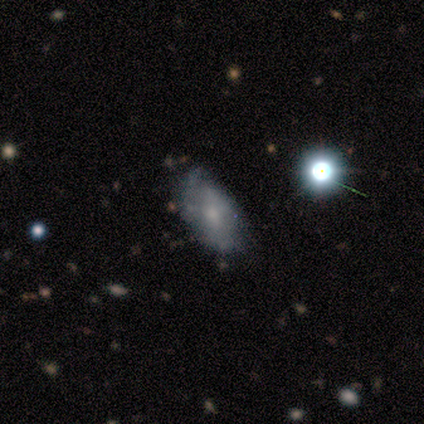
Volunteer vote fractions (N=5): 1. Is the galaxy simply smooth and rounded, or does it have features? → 60% featured or disk, 40% smooth, 0% star or artifact.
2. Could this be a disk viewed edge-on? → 100% no, 0% yes.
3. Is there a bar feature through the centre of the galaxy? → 67% no, 33% weak, 0% strong.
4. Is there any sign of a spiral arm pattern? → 67% yes, 33% no.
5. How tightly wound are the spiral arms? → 50% tight (tied), 50% loose (tied), 0% medium.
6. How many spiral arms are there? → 100% 1, 0% 2, 0% 3, 0% 4, 0% more than 4, 0% can't tell.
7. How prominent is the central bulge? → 67% moderate, 33% small, 0% dominant, 0% large, 0% none.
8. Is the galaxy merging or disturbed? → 60% none, 40% minor disturbance, 0% major disturbance, 0% merger.